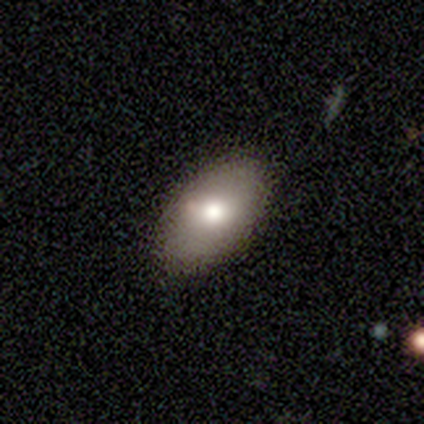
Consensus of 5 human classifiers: Q: Smooth or featured?
A: smooth (60%); runner-up: featured or disk (40%)
Q: How rounded?
A: in between (100%)
Q: Merging?
A: none (80%); runner-up: minor disturbance (20%)